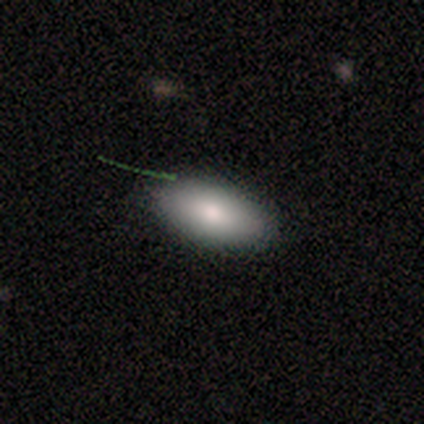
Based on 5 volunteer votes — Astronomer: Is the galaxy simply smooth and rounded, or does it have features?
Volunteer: smooth — 80%.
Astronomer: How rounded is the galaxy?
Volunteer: in between — 75%.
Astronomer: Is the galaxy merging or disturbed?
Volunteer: none — 80%.